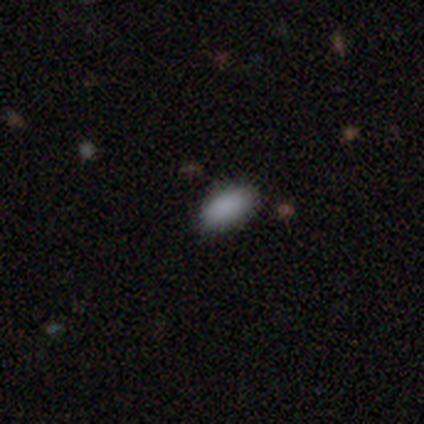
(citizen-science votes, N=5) smooth-or-featured: smooth: 80% | star or artifact: 20% | featured or disk: 0%
  how-rounded: in between: 75% | cigar-shaped: 25% | round: 0%
  merging: none: 75% | minor disturbance: 25% | major disturbance: 0% | merger: 0%